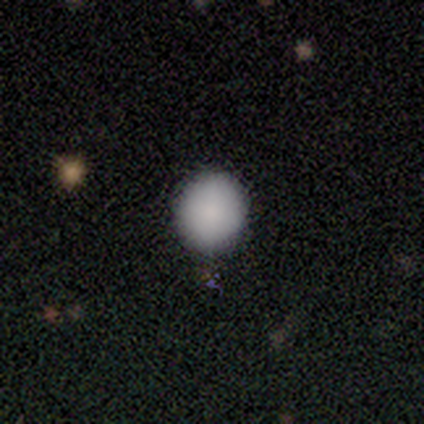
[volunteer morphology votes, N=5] Overall: smooth (100%). How rounded: round (100%). Merging: none (80%).